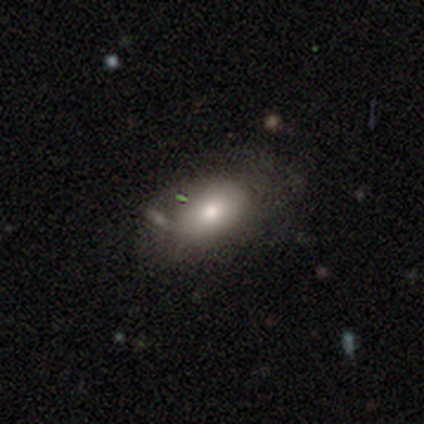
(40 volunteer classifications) Smooth or featured? smooth (60%)
How rounded? in between (96%)
Merging? none (46%)